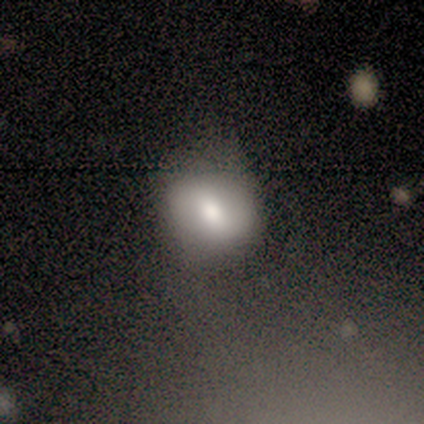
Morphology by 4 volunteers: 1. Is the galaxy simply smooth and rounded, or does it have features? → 100% smooth, 0% featured or disk, 0% star or artifact.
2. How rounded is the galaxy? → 50% round (tied), 50% in between (tied), 0% cigar-shaped.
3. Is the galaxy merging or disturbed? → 50% none (tied), 50% minor disturbance (tied), 0% major disturbance, 0% merger.